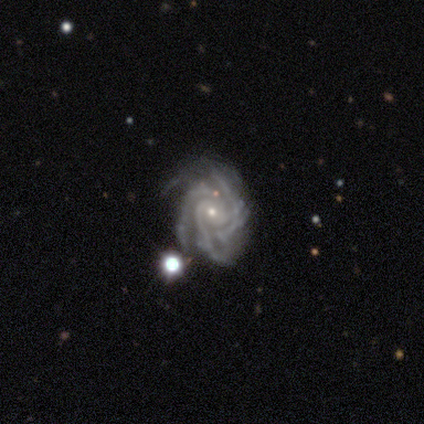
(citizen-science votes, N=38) A featured or disk galaxy (95%) with no bar (72%), 3 (51%) tight (60%) spiral arms (97%) and a small central bulge (81%).

Vote fractions:
- Smooth or featured? featured or disk: 95% / smooth: 3% / star or artifact: 3%
- Edge-on disk? no: 100% / yes: 0%
- Bar? no: 72% / weak: 22% / strong: 6%
- Spiral arms? yes: 97% / no: 3%
- Spiral winding? tight: 60% / medium: 37% / loose: 3%
- Spiral arm count? 3: 51% / 4: 23% / more than 4: 14% / can't tell: 6% / 1: 3% / 2: 3%
- Bulge size? small: 81% / moderate: 17% / dominant: 3% / large: 0% / none: 0%
- Merging? none: 54% / minor disturbance: 35% / major disturbance: 11% / merger: 0%